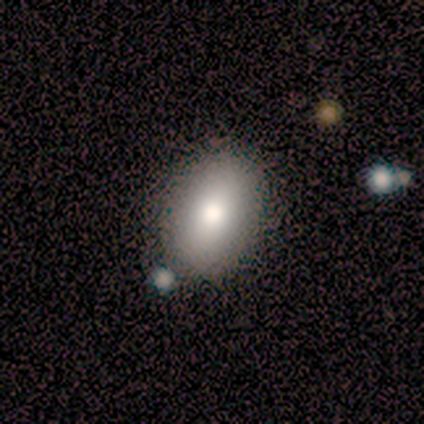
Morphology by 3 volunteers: A smooth galaxy with no disk features (100%) that is in between round and cigar-shaped (100%). Merging: none (100%).